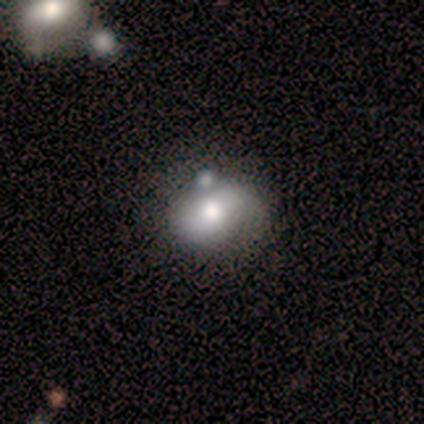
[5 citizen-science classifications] A smooth galaxy with no disk features (60%) that is in between round and cigar-shaped (67%).

Vote fractions:
- Smooth or featured? smooth: 60% / featured or disk: 20% / star or artifact: 20%
- How rounded? in between: 67% / round: 33% / cigar-shaped: 0%
- Merging? minor disturbance: 50% / none: 25% / merger: 25% / major disturbance: 0%